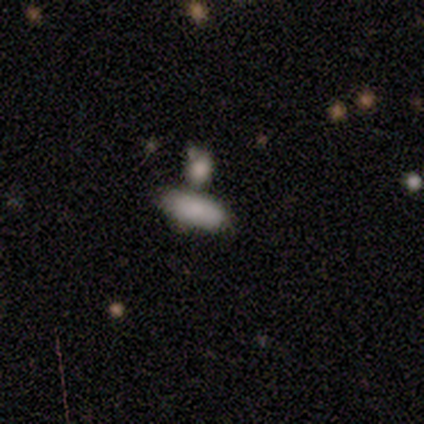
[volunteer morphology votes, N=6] smooth_or_featured: smooth (p=1.00)
how_rounded: in between (p=0.67) [alt: round p=0.17]
merging: none (p=0.83) [alt: merger p=0.17]